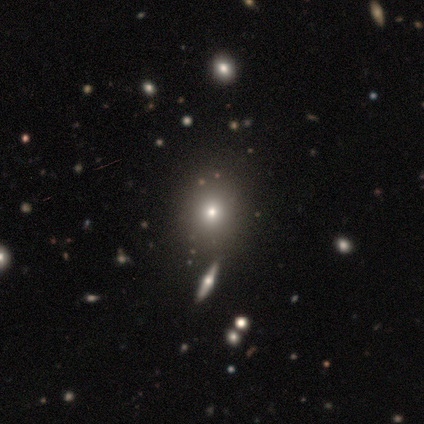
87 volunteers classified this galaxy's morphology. Volunteers were most divided on "smooth or featured": smooth: 57%, star or artifact: 31%, featured or disk: 11%. More confident: merging — none (78%); how rounded — round (66%).